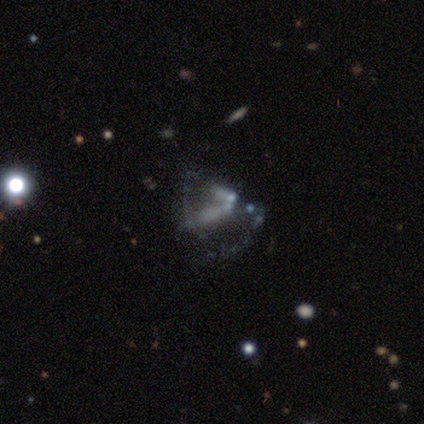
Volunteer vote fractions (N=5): smooth-or-featured: star or artifact: 60% | smooth: 20% | featured or disk: 20%